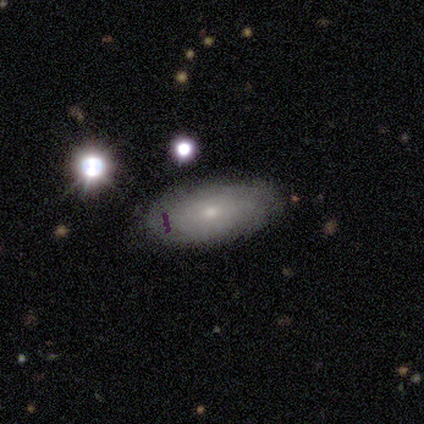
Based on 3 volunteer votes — A smooth galaxy with no disk features (67%) that is in between round and cigar-shaped (100%).

Vote fractions:
- Smooth or featured? smooth: 67% / featured or disk: 33% / star or artifact: 0%
- How rounded? in between: 100% / round: 0% / cigar-shaped: 0%
- Merging? none: 67% / minor disturbance: 33% / major disturbance: 0% / merger: 0%